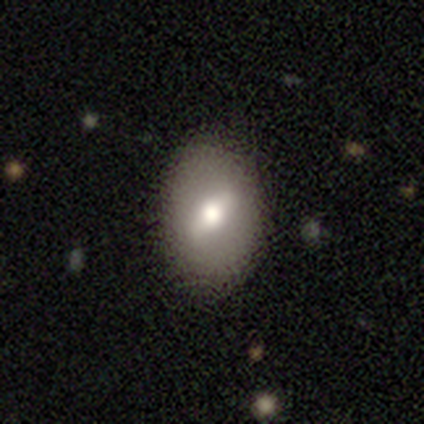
This appears to be a smooth galaxy with no disk features (54%) that is in between round and cigar-shaped (77%). Merging: none (50%).